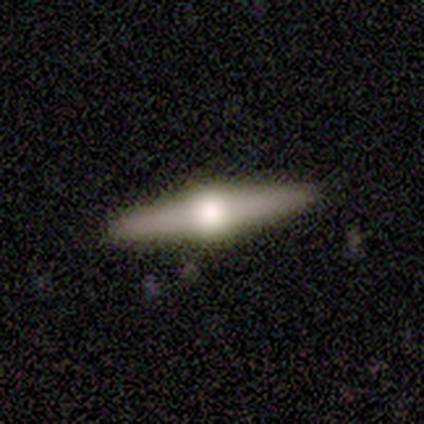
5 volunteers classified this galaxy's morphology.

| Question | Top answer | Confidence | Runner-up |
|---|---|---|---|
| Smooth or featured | featured or disk | 100% | — |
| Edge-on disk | yes | 100% | — |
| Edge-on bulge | rounded | 100% | — |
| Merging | none | 80% | minor disturbance (20%) |